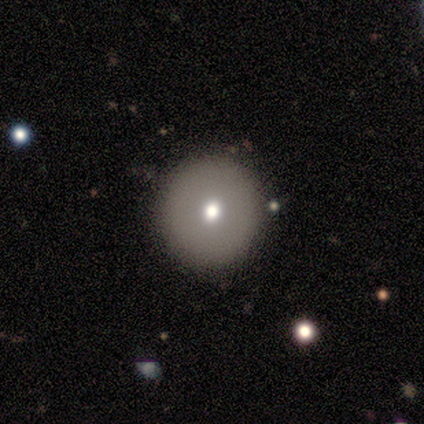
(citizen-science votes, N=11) Morphology: type=smooth (64%); roundness=round (100%); merging=none (90%).